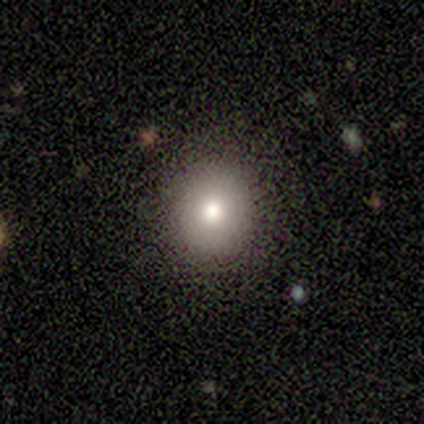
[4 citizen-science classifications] smooth-or-featured: smooth: 100% | featured or disk: 0% | star or artifact: 0%
  how-rounded: round: 100% | in between: 0% | cigar-shaped: 0%
  merging: none: 100% | minor disturbance: 0% | major disturbance: 0% | merger: 0%